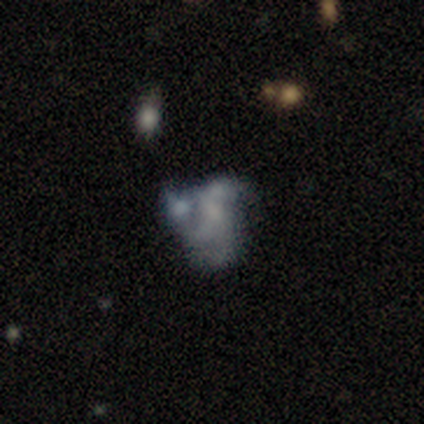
This is possibly a featured or disk galaxy (55%). It is clearly not viewed edge-on (100%). Bar: clearly no (83%). Spiral arm pattern: likely no (67%). Central bulge: likely none (67%). Merging: marginally major disturbance (44%).